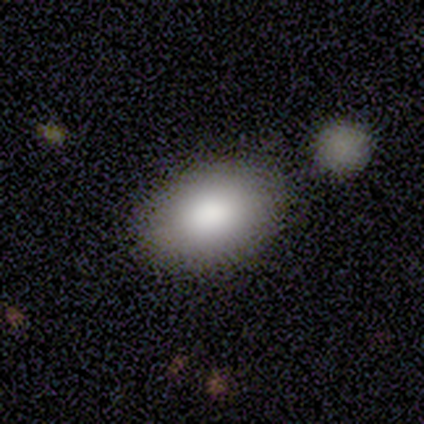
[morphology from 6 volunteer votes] A smooth galaxy with no disk features (100%) that is in between round and cigar-shaped (100%).

Vote fractions:
- Smooth or featured? smooth: 100% / featured or disk: 0% / star or artifact: 0%
- How rounded? in between: 100% / round: 0% / cigar-shaped: 0%
- Merging? none: 100% / minor disturbance: 0% / major disturbance: 0% / merger: 0%